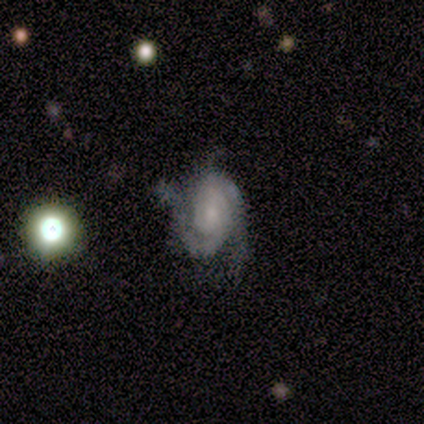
featured or disk 75%, smooth 25%, star or artifact 0%. Down the decision tree: edge-on disk — no (100%); bar — no (100%); spiral arms — yes (100%); spiral arm count — 2 (67%); spiral winding — tight (67%); bulge size — small (100%); merging — none (75%).